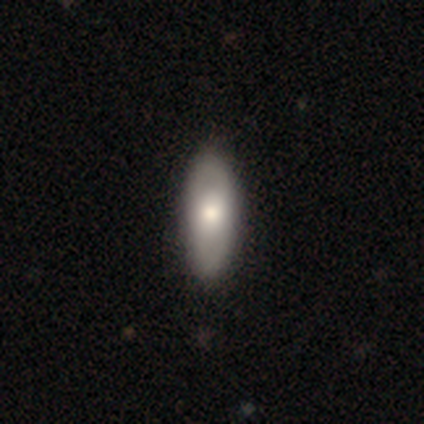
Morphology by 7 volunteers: Overall: smooth (57%; star or artifact 29%). How rounded: in between (75%). Merging: none (60%; minor disturbance 20%).